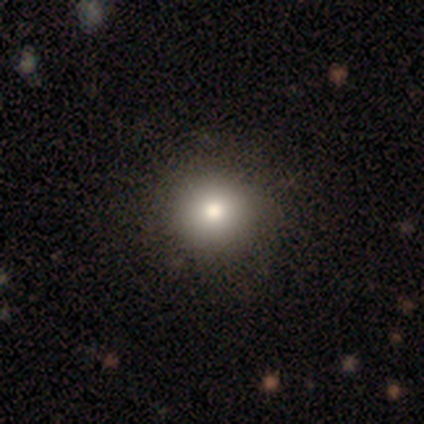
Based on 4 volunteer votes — Morphology: type=smooth (100%); roundness=round (75%); merging=none (100%).